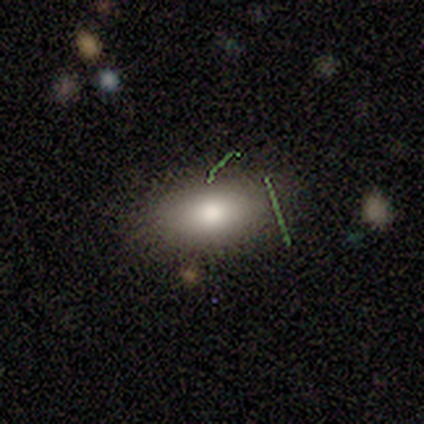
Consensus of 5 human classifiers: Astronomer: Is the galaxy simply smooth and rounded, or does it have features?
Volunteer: smooth — 100%.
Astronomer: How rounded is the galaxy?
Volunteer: in between — 60%.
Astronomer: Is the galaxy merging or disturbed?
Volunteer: none — 100%.